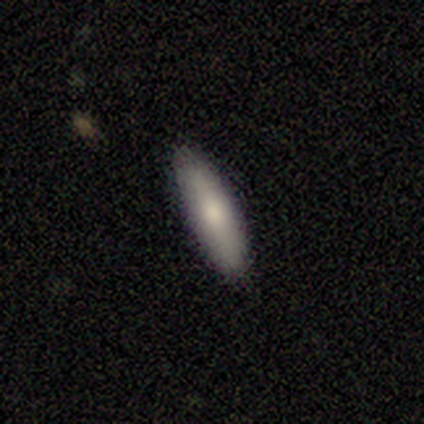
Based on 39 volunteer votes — smooth_or_featured: smooth (p=0.69) [alt: featured or disk p=0.23]
how_rounded: cigar-shaped (p=0.56) [alt: in between p=0.44]
merging: none (p=0.89) [alt: minor disturbance p=0.11]